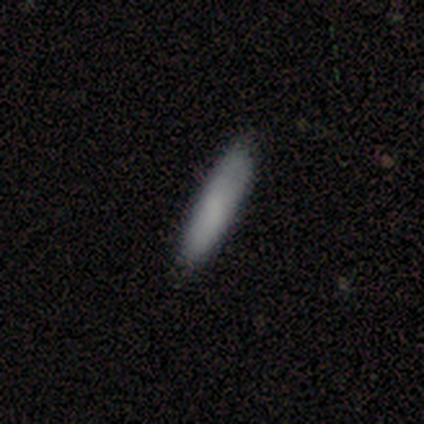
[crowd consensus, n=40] This is clearly a smooth galaxy (82%). How rounded: likely cigar-shaped (70%). Merging: clearly none (84%).